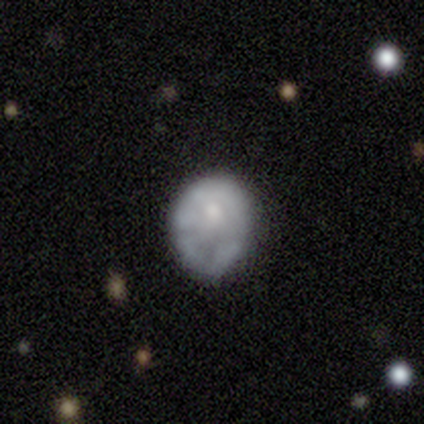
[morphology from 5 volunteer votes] smooth 40% (tied), featured or disk 40% (tied), star or artifact 20%. Down the decision tree: how rounded — round (50%, tied with in between); merging — none (50%, tied with minor disturbance).